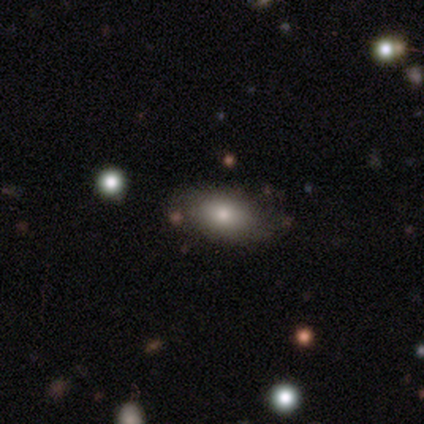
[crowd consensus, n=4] smooth_or_featured: smooth (p=0.75) [alt: featured or disk p=0.25]
how_rounded: in between (p=1.00)
merging: none (p=1.00)